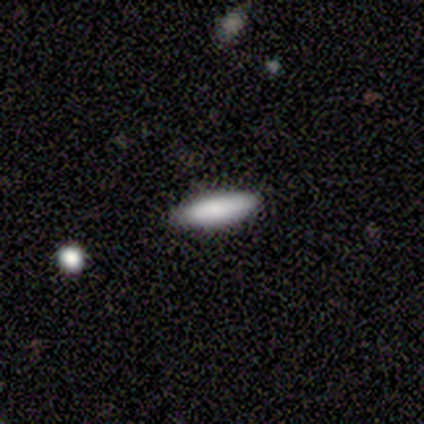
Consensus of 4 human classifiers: Overall: smooth (50%; featured or disk 25%). How rounded: cigar-shaped (100%). Merging: none (100%).